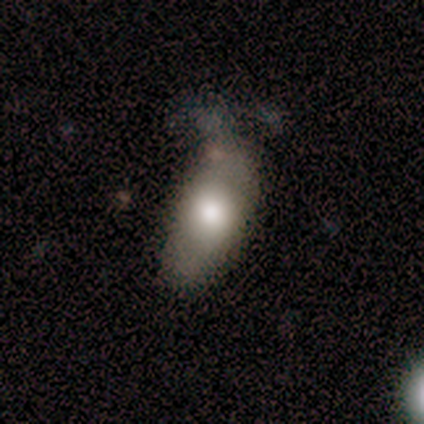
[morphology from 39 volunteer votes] Smooth or featured? 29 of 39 (74%) said smooth. How rounded? 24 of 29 (83%) said in between. Merging? 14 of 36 (39%) said none.